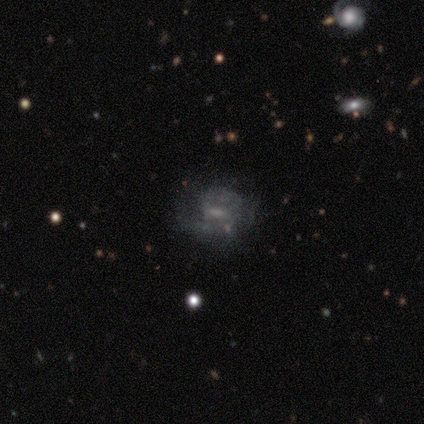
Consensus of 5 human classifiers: Overall: smooth (60%; featured or disk 20%). How rounded: in between (67%; round 33%). Merging: none (50%; minor disturbance 25%).